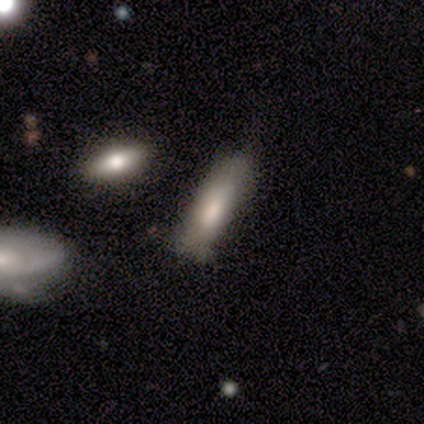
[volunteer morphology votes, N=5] Smooth or featured? smooth (60%)
How rounded? cigar-shaped (67%)
Merging? none (50%, tied with minor disturbance)